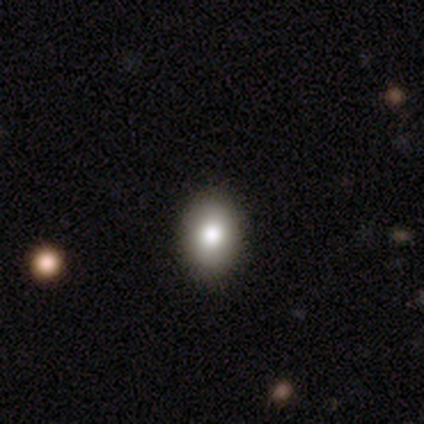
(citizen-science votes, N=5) This is clearly a smooth galaxy (80%). How rounded: possibly round (50%, tied with in between). Merging: clearly none (100%).